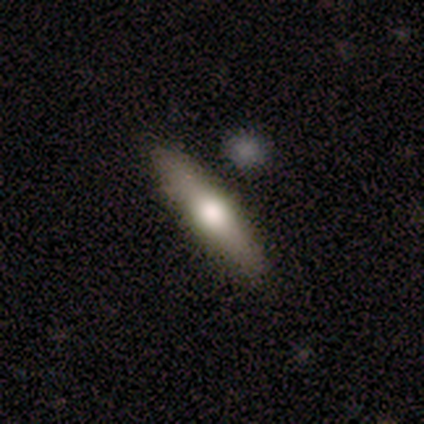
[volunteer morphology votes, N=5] Q: Smooth or featured?
A: smooth (100%)
Q: How rounded?
A: cigar-shaped (80%); runner-up: in between (20%)
Q: Merging?
A: none (100%)